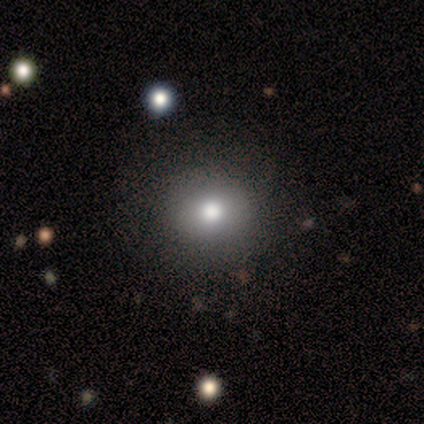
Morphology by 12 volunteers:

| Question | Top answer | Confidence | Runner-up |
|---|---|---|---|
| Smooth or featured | smooth | 75% | star or artifact (25%) |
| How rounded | in between | 56% | round (44%) |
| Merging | none | 78% | minor disturbance (11%) |